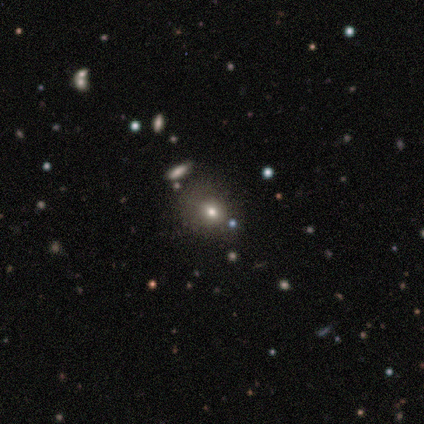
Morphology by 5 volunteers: Smooth or featured?
  - smooth: 60% *
  - featured or disk: 20%
  - star or artifact: 20%
How rounded?
  - round: 67% *
  - in between: 33%
  - cigar-shaped: 0%
Merging?
  - none: 100% *
  - minor disturbance: 0%
  - major disturbance: 0%
  - merger: 0%